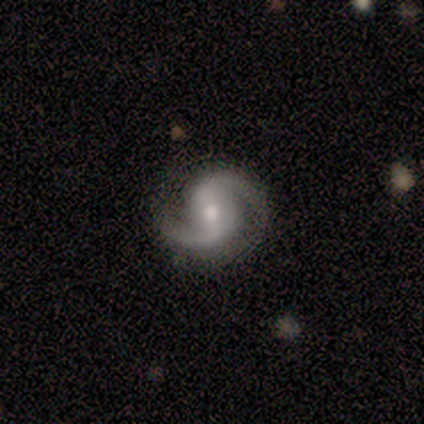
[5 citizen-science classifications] Smooth or featured: featured or disk — 100%
Edge-on disk: no — 100%
Bar: weak — 40% (tied with no — 40%)
Spiral arms: yes — 100%
Spiral winding: medium — 80% (loose — 20%)
Spiral arm count: 2 — 100%
Bulge size: small — 60% (moderate — 40%)
Merging: none — 80% (merger — 20%)